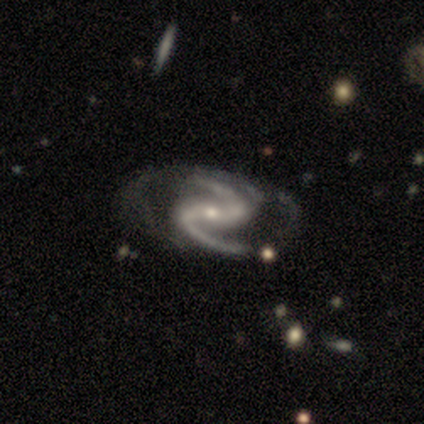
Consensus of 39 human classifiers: Morphology: type=featured or disk (97%); edge-on=no (92%); bar=strong (49%); spiral arms=yes (97%); winding=medium (56%); arm count=2 (97%); bulge=small (80%); merging=none (45%).